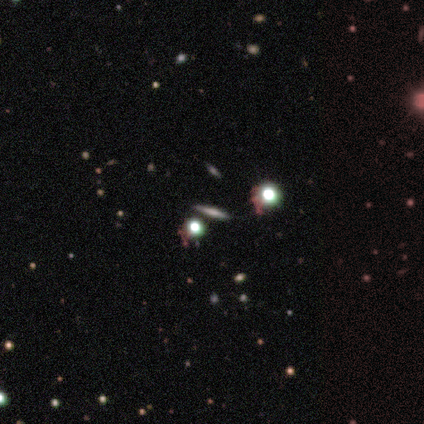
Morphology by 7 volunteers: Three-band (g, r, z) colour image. It shows a featured or disk galaxy (57%) viewed edge-on (100%) with no central bulge (50%, tied with rounded). Merging: none (100%).